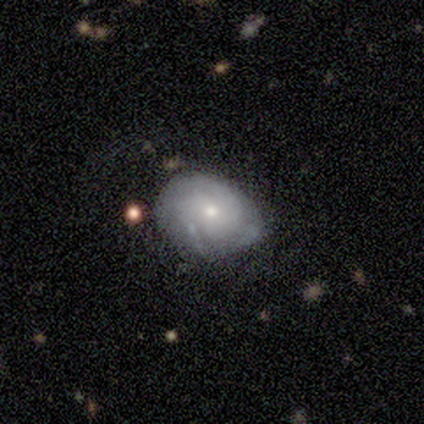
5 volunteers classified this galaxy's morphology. This appears to be a featured or disk galaxy (80%) with no bar (100%), tight (33%, tied with medium and loose) spiral arms (75%) and a small central bulge (75%). Merging: none (80%).